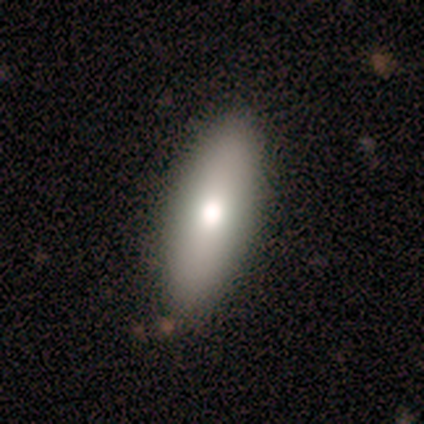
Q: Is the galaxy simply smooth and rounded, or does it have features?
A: smooth — 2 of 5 (40%, tied with featured or disk).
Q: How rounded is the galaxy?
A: in between — 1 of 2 (50%, tied with cigar-shaped).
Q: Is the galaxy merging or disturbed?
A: none — 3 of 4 (75%).